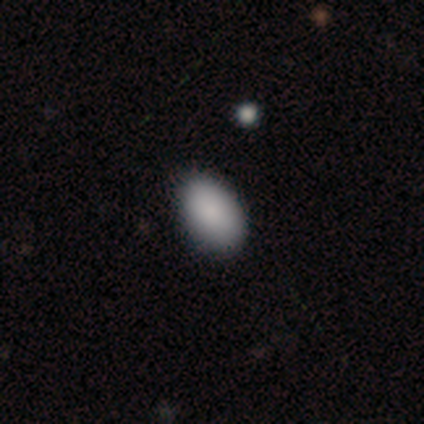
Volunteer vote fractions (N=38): This appears to be a smooth galaxy with no disk features (89%) that is in between round and cigar-shaped (91%). Merging: none (83%).